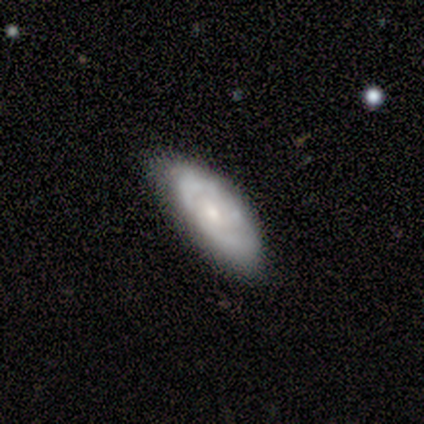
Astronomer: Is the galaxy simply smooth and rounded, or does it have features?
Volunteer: featured or disk — 60% (runner-up: smooth, 40%).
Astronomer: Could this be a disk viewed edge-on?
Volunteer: no — 100%.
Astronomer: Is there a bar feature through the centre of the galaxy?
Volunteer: no — 67%.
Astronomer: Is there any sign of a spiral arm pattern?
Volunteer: no — 100%.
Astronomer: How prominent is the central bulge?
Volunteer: moderate — 33%, tied with small and none at 33%.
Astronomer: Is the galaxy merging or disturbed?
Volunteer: none — 80%.